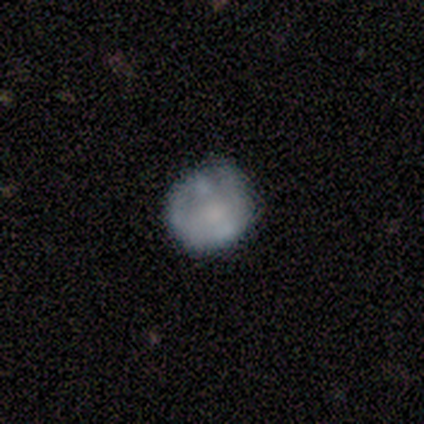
Volunteers were most divided on "how rounded": round: 60%, in between: 40%, cigar-shaped: 0%. More confident: smooth or featured — smooth (100%); merging — none (60%).